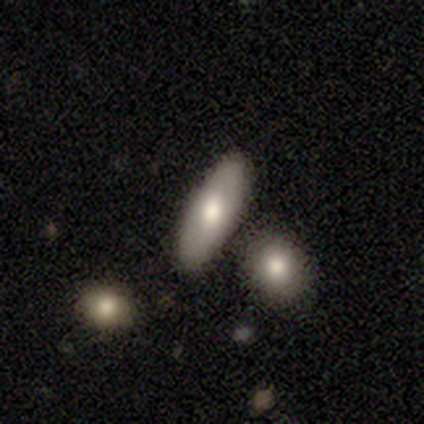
This appears to be a smooth galaxy with no disk features (74%) that is in between round and cigar-shaped (66%). Merging: none (81%).